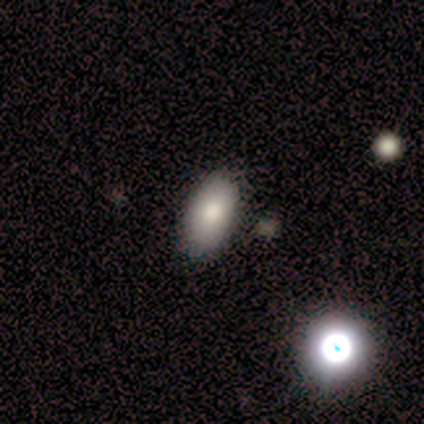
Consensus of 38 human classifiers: smooth 79%, star or artifact 13%, featured or disk 8%. Down the decision tree: how rounded — in between (97%); merging — none (82%).